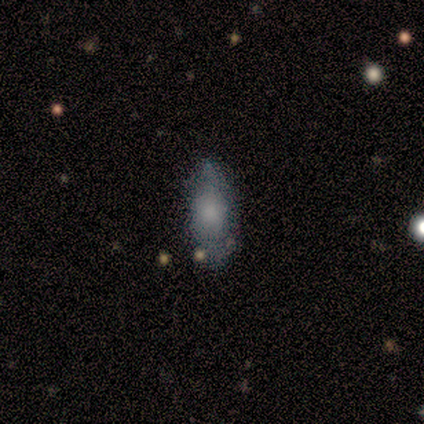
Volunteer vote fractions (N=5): A smooth galaxy with no disk features (60%) that is round (33%, tied with in between and cigar-shaped).

Vote fractions:
- Smooth or featured? smooth: 60% / featured or disk: 40% / star or artifact: 0%
- How rounded? round: 33% (tied) / in between: 33% (tied) / cigar-shaped: 33% (tied)
- Merging? minor disturbance: 60% / none: 20% / major disturbance: 20% / merger: 0%